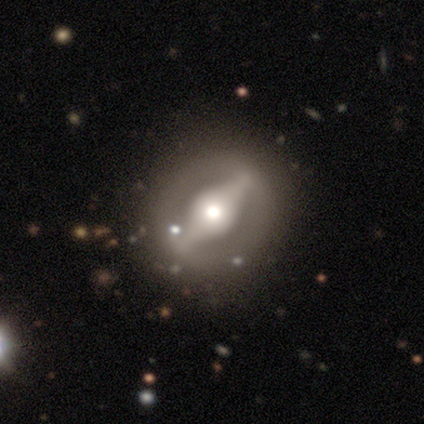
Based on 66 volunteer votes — Smooth or featured? 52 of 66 (79%) said featured or disk. Edge-on disk? 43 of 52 (83%) said no. Bar? 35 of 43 (81%) said strong. Spiral arms? 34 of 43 (79%) said no. Bulge size? 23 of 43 (53%) said moderate. Merging? 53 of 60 (88%) said none.